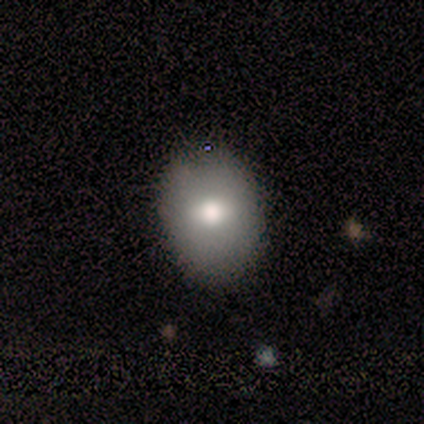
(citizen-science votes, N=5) smooth_or_featured: smooth (p=1.00)
how_rounded: in between (p=1.00)
merging: none (p=1.00)